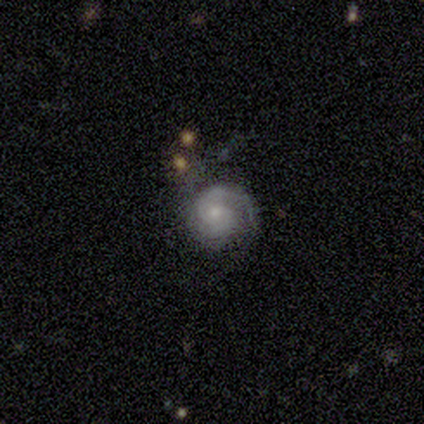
Overall: featured or disk (89%). Edge-on disk: no (100%). Bar: no (85%). Spiral arms: yes (97%). Spiral arm count: 2 (59%; can't tell 28%). Spiral winding: tight (62%). Bulge size: small (58%; moderate 30%). Merging: none (69%).